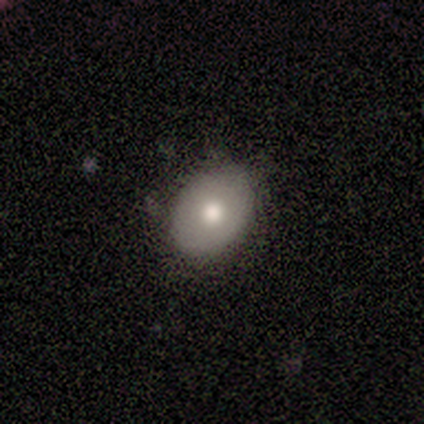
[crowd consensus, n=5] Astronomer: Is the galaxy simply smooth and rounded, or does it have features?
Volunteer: smooth — 60% (runner-up: featured or disk, 40%).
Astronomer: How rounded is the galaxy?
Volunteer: in between — 100%.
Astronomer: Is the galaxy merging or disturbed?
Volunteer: none — 100%.